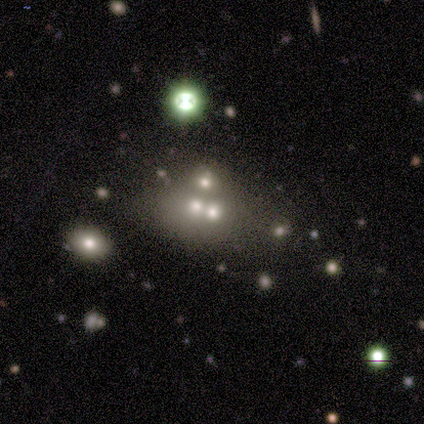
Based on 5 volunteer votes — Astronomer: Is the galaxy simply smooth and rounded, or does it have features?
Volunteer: smooth — 40%, tied with featured or disk at 40%.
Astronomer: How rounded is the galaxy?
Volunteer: round — 50%, tied with in between at 50%.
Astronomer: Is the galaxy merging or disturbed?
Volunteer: merger — 75%.